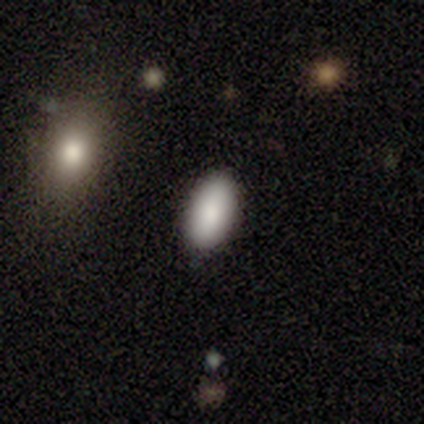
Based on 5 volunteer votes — Overall: smooth (80%). How rounded: in between (100%). Merging: none (100%).